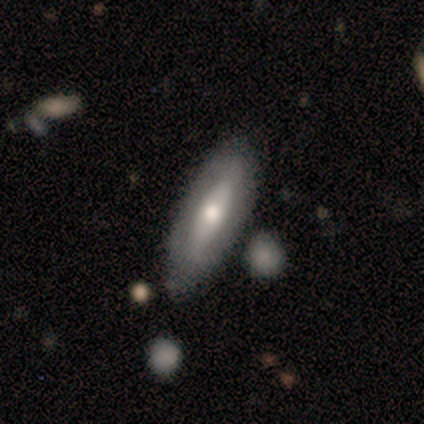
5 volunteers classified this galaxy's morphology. smooth_or_featured: featured or disk (p=0.60) [alt: smooth p=0.20]
disk_edge_on: no (p=0.67) [alt: yes p=0.33]
bar: strong (p=0.50) [tied with: weak p=0.50]
has_spiral_arms: yes (p=0.50) [tied with: no p=0.50]
spiral_winding: loose (p=1.00)
spiral_arm_count: 2 (p=1.00)
bulge_size: moderate (p=1.00)
merging: none (p=0.50) [tied with: minor disturbance p=0.50]